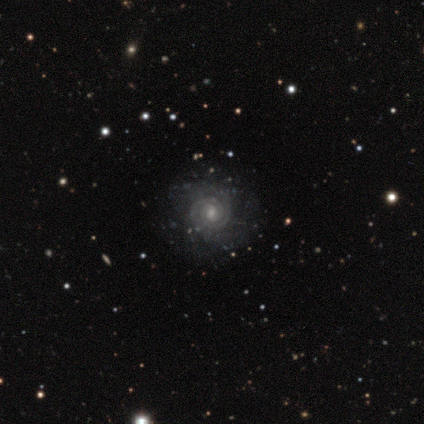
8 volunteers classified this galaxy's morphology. Smooth or featured? featured or disk (88%)
Edge-on disk? no (100%)
Bar? weak (57%)
Spiral arms? yes (100%)
Spiral winding? tight (100%)
Spiral arm count? 2 (86%)
Bulge size? small (57%)
Merging? none (86%)